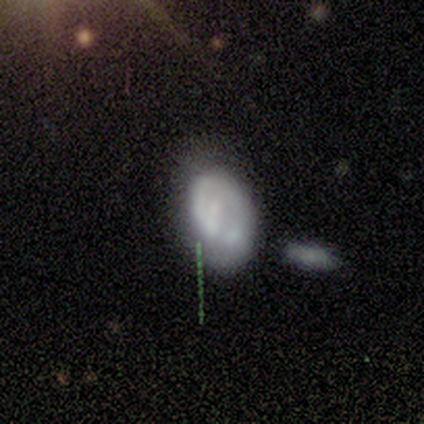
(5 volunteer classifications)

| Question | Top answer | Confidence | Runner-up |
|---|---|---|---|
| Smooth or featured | featured or disk | 80% | smooth (20%) |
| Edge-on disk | no | 100% | — |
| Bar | no | 75% | strong (25%) |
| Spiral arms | no | 75% | yes (25%) |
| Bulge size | none | 75% | small (25%) |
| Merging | none | 100% | — |